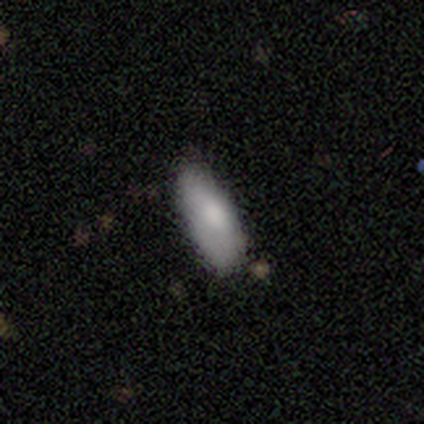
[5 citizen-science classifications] A smooth galaxy with no disk features (100%) that is in between round and cigar-shaped (80%). Merging: none (60%).